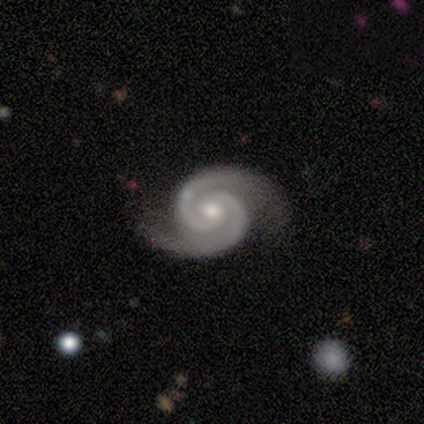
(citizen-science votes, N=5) smooth_or_featured: featured or disk (p=1.00)
disk_edge_on: no (p=1.00)
bar: weak (p=0.40) [tied with: no p=0.40]
has_spiral_arms: yes (p=1.00)
spiral_winding: tight (p=1.00)
spiral_arm_count: 2 (p=1.00)
bulge_size: moderate (p=0.80) [alt: small p=0.20]
merging: none (p=0.80) [alt: minor disturbance p=0.20]